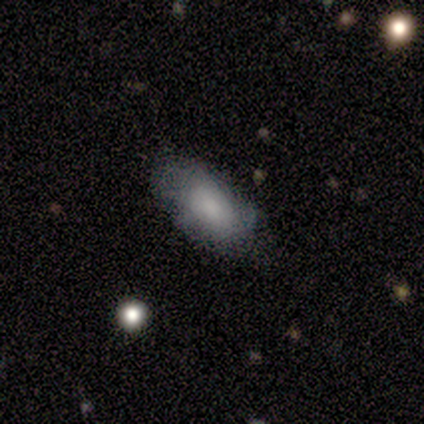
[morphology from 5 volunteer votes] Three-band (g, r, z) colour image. It shows a featured or disk galaxy (60%) with no bar (100%), 2 (50%, tied with can't tell) tight (50%, tied with loose) spiral arms (67%) and no central bulge (67%). Merging: none (60%).